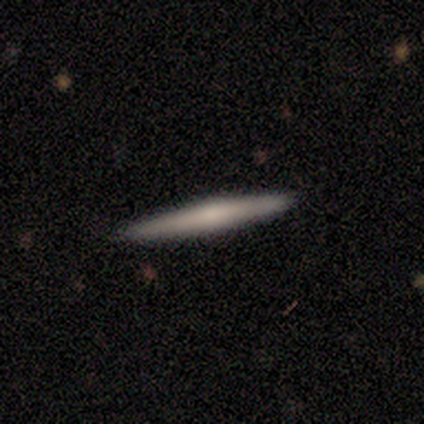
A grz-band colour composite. It shows a featured or disk galaxy (52%) viewed edge-on (95%) with a rounded central bulge (60%). Merging: none (90%).